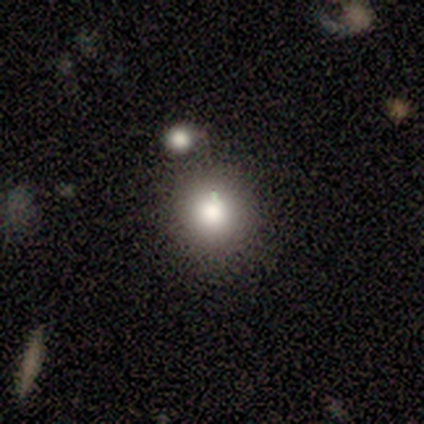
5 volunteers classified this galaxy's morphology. Smooth or featured? smooth (60%)
How rounded? round (100%)
Merging? none (100%)